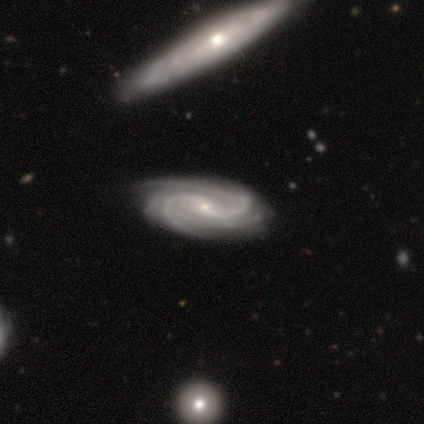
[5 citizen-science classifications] Smooth or featured: featured or disk — 80% (smooth — 20%)
Edge-on disk: no — 100%
Bar: weak — 100%
Spiral arms: yes — 100%
Spiral winding: tight — 75% (loose — 25%)
Spiral arm count: 2 — 25% (tied with 4 — 25%; more than 4 — 25%; can't tell — 25%)
Bulge size: small — 100%
Merging: none — 80% (minor disturbance — 20%)